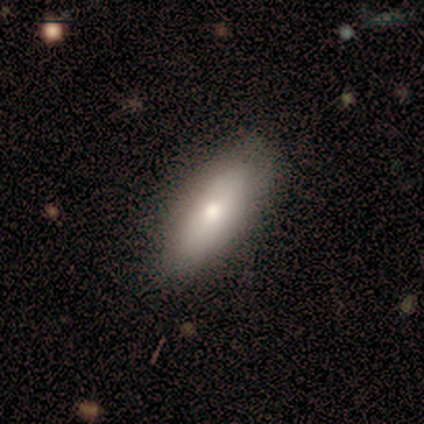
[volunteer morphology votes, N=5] A smooth galaxy with no disk features (60%) that is in between round and cigar-shaped (100%). Merging: none (100%).